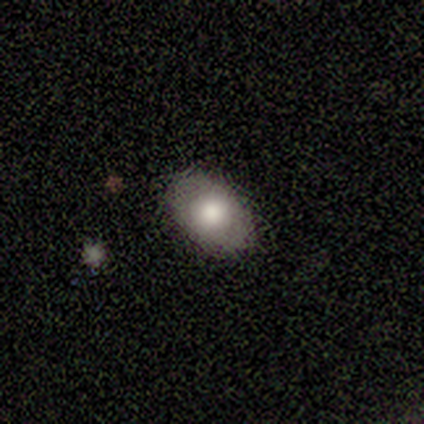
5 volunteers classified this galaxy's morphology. Q: Smooth or featured?
A: smooth (60%); runner-up: featured or disk (40%)
Q: How rounded?
A: in between (100%)
Q: Merging?
A: none (80%); runner-up: minor disturbance (20%)